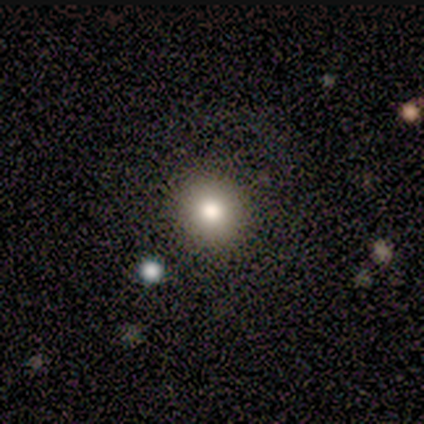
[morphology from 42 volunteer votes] Q: Smooth or featured?
A: smooth (76%); runner-up: star or artifact (17%)
Q: How rounded?
A: round (91%); runner-up: in between (9%)
Q: Merging?
A: none (86%); runner-up: minor disturbance (9%)